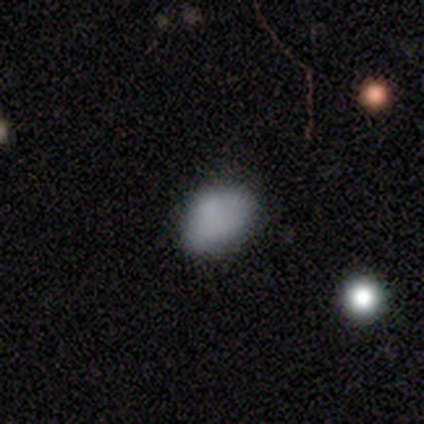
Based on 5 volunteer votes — Smooth or featured? smooth (80%)
How rounded? in between (100%)
Merging? none (50%)